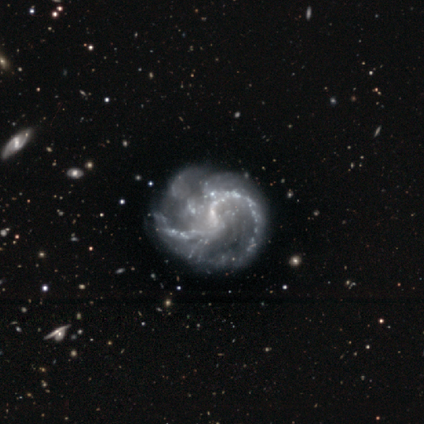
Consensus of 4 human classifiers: smooth-or-featured: featured or disk: 100% | smooth: 0% | star or artifact: 0%
  disk-edge-on: no: 100% | yes: 0%
    bar: weak: 100% | strong: 0% | no: 0%
    has-spiral-arms: yes: 100% | no: 0%
      spiral-winding: medium: 50% | tight: 25% | loose: 25%
      spiral-arm-count: 2: 75% | 3: 25% | 1: 0% | 4: 0% | more than 4: 0% | can't tell: 0%
    bulge-size: small: 50% (tied) | none: 50% (tied) | dominant: 0% | large: 0% | moderate: 0%
  merging: minor disturbance: 50% | none: 25% | major disturbance: 25% | merger: 0%